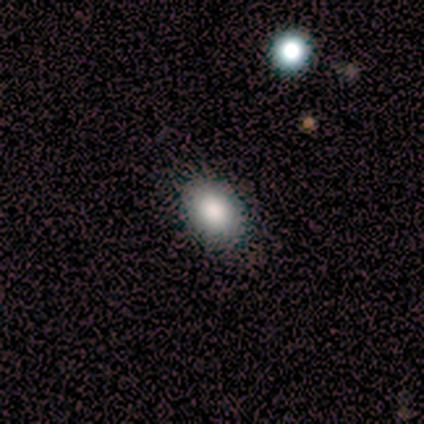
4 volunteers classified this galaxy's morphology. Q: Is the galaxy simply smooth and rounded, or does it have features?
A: smooth — 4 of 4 (100%).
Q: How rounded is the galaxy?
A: in between — 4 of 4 (100%).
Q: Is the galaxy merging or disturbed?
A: none — 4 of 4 (100%).